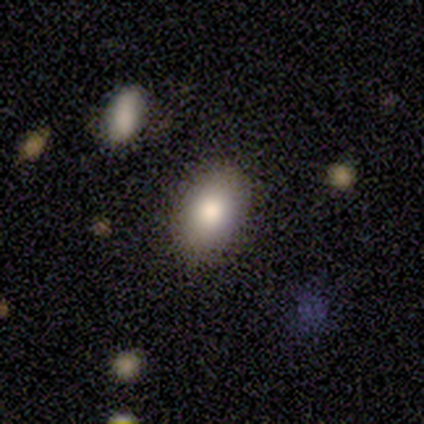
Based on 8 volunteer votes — This is clearly a smooth galaxy (100%). How rounded: clearly in between (100%). Merging: clearly none (88%).